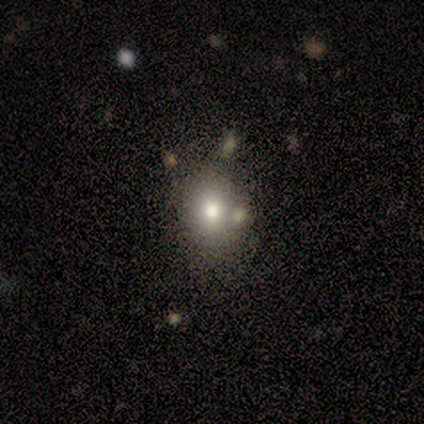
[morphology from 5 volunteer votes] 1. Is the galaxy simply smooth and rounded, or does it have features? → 80% smooth, 20% star or artifact, 0% featured or disk.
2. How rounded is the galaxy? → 50% round (tied), 50% in between (tied), 0% cigar-shaped.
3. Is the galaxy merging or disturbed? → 75% none, 25% minor disturbance, 0% major disturbance, 0% merger.